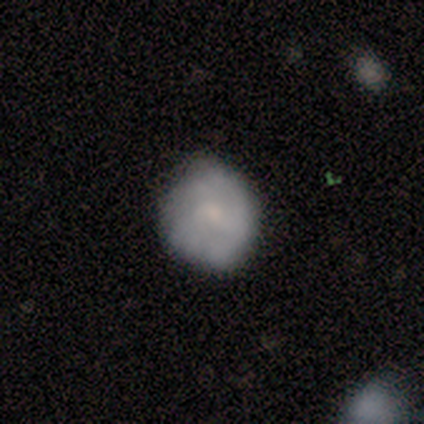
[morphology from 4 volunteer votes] A featured or disk galaxy (75%) with no bar (100%), no spiral arms (67%) and a small central bulge (67%).

Vote fractions:
- Smooth or featured? featured or disk: 75% / smooth: 25% / star or artifact: 0%
- Edge-on disk? no: 100% / yes: 0%
- Bar? no: 100% / strong: 0% / weak: 0%
- Spiral arms? no: 67% / yes: 33%
- Bulge size? small: 67% / moderate: 33% / dominant: 0% / large: 0% / none: 0%
- Merging? none: 75% / minor disturbance: 25% / major disturbance: 0% / merger: 0%